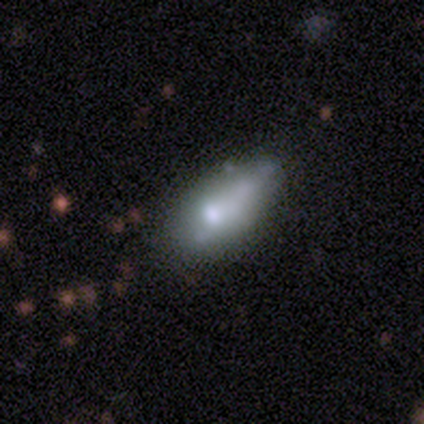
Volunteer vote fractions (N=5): Smooth or featured: smooth — 40% (tied with star or artifact — 40%)
How rounded: in between — 100%
Merging: minor disturbance — 67% (none — 33%)